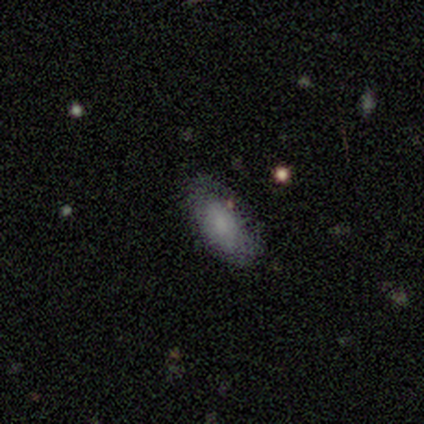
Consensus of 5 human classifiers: smooth-or-featured: smooth: 80% | featured or disk: 20% | star or artifact: 0%
  how-rounded: in between: 100% | round: 0% | cigar-shaped: 0%
  merging: minor disturbance: 60% | none: 40% | major disturbance: 0% | merger: 0%